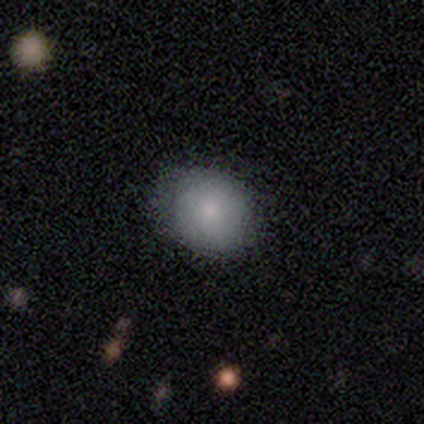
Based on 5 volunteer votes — Morphology: type=smooth (100%); roundness=round (100%); merging=none (80%).